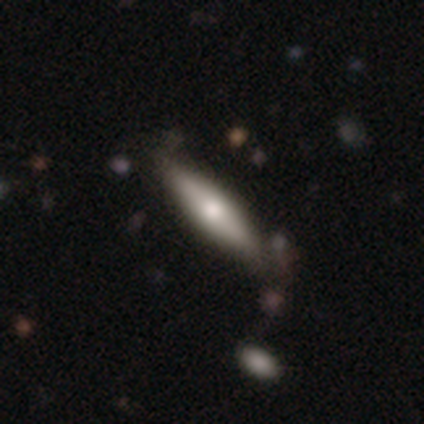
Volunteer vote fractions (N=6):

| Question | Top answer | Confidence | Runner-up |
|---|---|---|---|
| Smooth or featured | smooth | 67% | featured or disk (33%) |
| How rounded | cigar-shaped | 100% | — |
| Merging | none | 67% | minor disturbance (33%) |